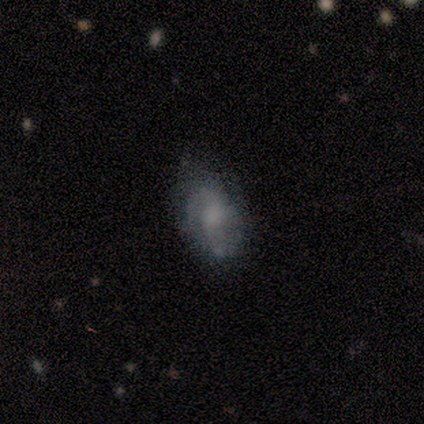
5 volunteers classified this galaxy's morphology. smooth_or_featured: smooth (p=0.60) [alt: featured or disk p=0.40]
how_rounded: in between (p=1.00)
merging: none (p=0.60) [alt: minor disturbance p=0.20]